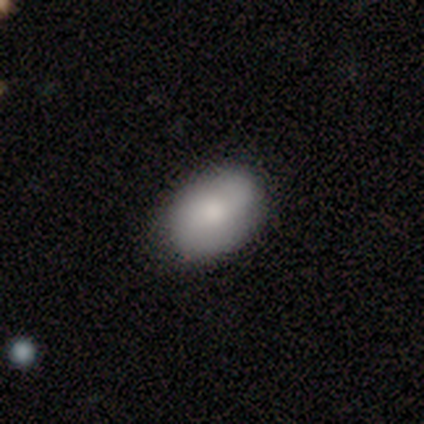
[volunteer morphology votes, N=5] This is clearly a smooth galaxy (100%). How rounded: clearly in between (100%). Merging: clearly none (100%).